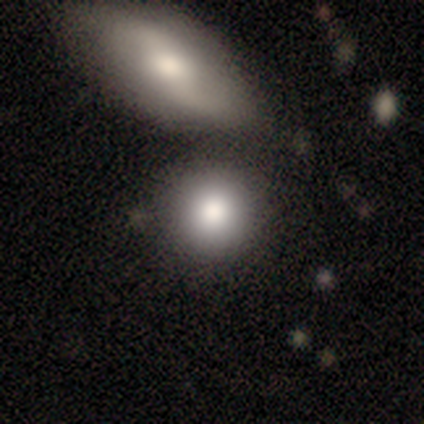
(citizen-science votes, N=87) smooth-or-featured: smooth: 82% | featured or disk: 13% | star or artifact: 6%
  how-rounded: round: 85% | in between: 15% | cigar-shaped: 0%
  merging: none: 68% | merger: 21% | minor disturbance: 9% | major disturbance: 2%